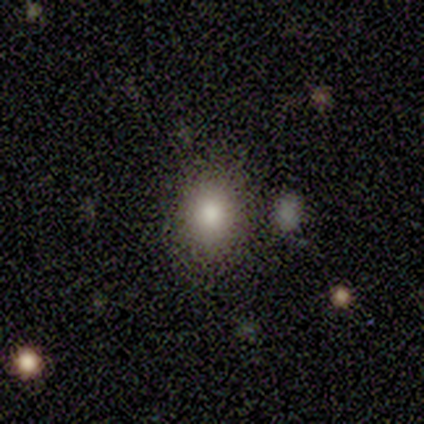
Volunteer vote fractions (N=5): A smooth galaxy with no disk features (60%) that is in between round and cigar-shaped (67%). Merging: none (100%).